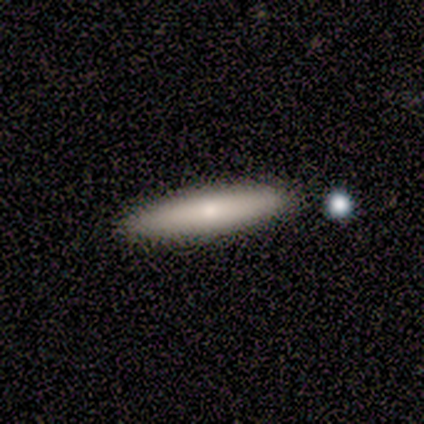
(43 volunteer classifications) smooth_or_featured: smooth (p=0.56) [alt: featured or disk p=0.33]
how_rounded: cigar-shaped (p=0.92) [alt: in between p=0.08]
merging: none (p=0.89) [alt: minor disturbance p=0.11]